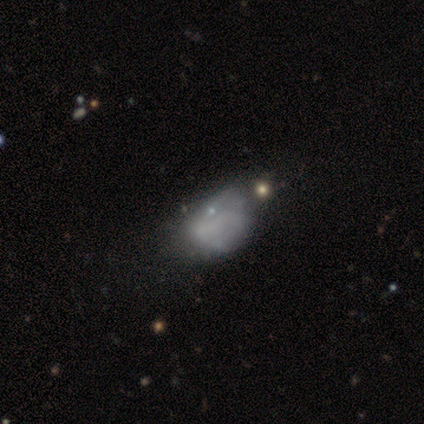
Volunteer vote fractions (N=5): Q: Smooth or featured?
A: star or artifact (80%); runner-up: featured or disk (20%)